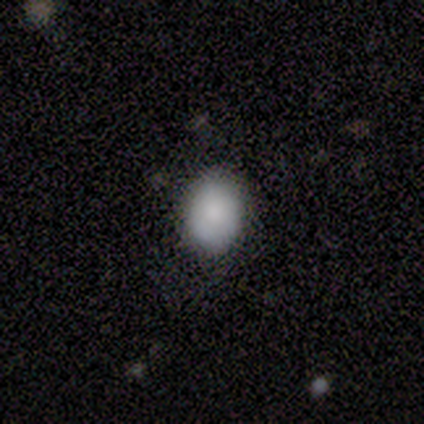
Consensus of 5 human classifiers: A smooth galaxy with no disk features (60%) that is round (67%).

Vote fractions:
- Smooth or featured? smooth: 60% / star or artifact: 40% / featured or disk: 0%
- How rounded? round: 67% / in between: 33% / cigar-shaped: 0%
- Merging? none: 100% / minor disturbance: 0% / major disturbance: 0% / merger: 0%